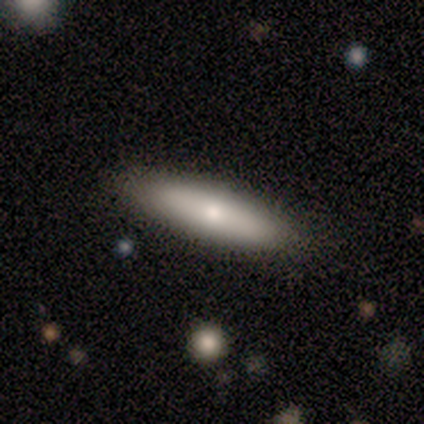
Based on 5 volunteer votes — This appears to be a smooth galaxy with no disk features (80%) that is cigar-shaped (75%). Merging: none (100%).